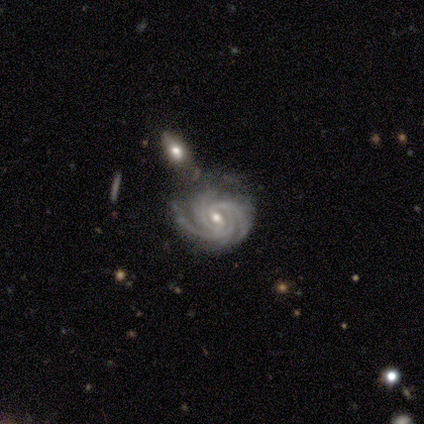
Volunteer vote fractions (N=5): This is clearly a featured or disk galaxy (100%). It is clearly not viewed edge-on (100%). Bar: likely weak (60%). Spiral arm pattern: clearly yes (100%). Spiral arm count: clearly 3 (80%). Spiral winding: likely tight (60%). Central bulge: likely small (60%). Merging: marginally none (40%, tied with merger).